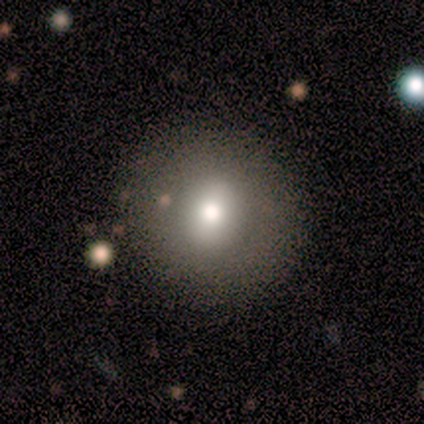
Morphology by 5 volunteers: type=smooth (40%, tied with star or artifact); roundness=round (100%); merging=none (100%).